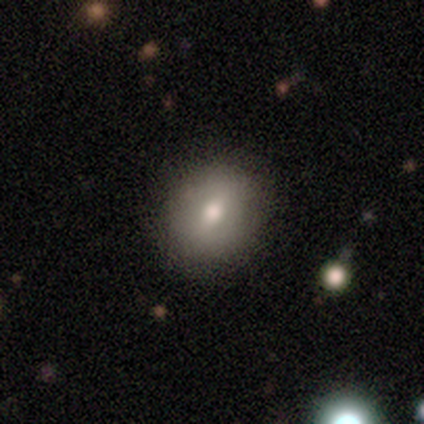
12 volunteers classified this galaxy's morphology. smooth-or-featured: smooth: 58% | featured or disk: 42% | star or artifact: 0%
  how-rounded: round: 57% | in between: 43% | cigar-shaped: 0%
  merging: none: 83% | minor disturbance: 17% | major disturbance: 0% | merger: 0%